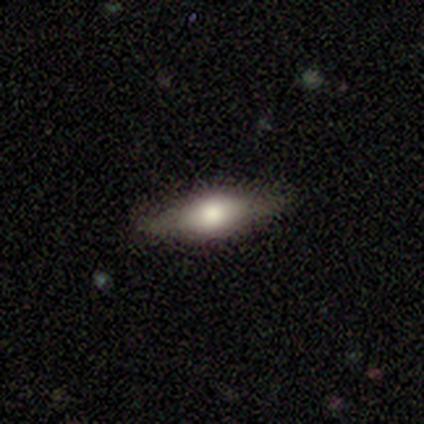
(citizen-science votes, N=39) Smooth or featured?
  - smooth: 51% *
  - featured or disk: 38%
  - star or artifact: 10%
How rounded?
  - in between: 55% *
  - cigar-shaped: 40%
  - round: 5%
Merging?
  - none: 86% *
  - minor disturbance: 11%
  - major disturbance: 3%
  - merger: 0%